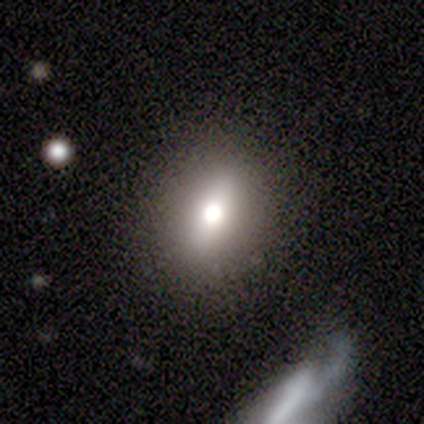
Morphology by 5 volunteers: Volunteers were most divided on "how rounded": in between: 75%, round: 25%, cigar-shaped: 0%. More confident: merging — none (100%); smooth or featured — smooth (80%).